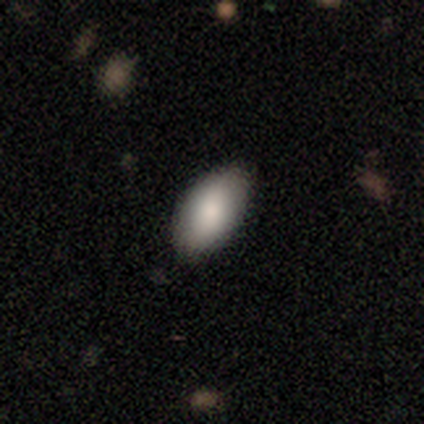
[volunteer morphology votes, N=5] type=smooth (100%); roundness=in between (100%); merging=none (100%).